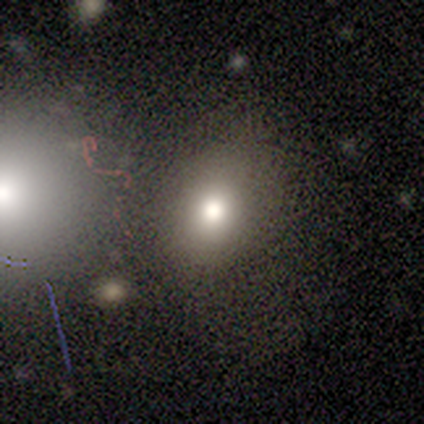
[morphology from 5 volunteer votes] Smooth or featured: smooth — 60% (featured or disk — 40%)
How rounded: round — 67% (in between — 33%)
Merging: none — 100%